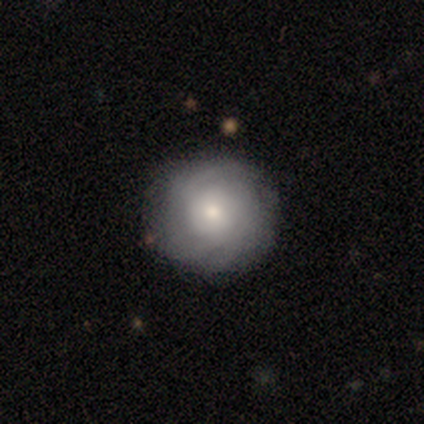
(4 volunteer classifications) This appears to be a featured or disk galaxy (75%) with no bar (100%), 3 (33%, tied with 4 and can't tell) tight (100%) spiral arms (100%) and a large central bulge (33%, tied with moderate and small). Merging: none (50%).